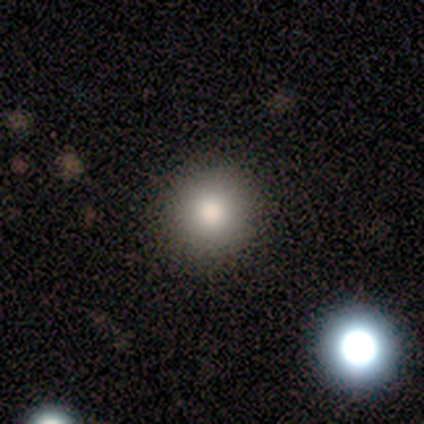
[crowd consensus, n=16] Volunteers were most divided on "smooth or featured": smooth: 69%, featured or disk: 25%, star or artifact: 6%. More confident: how rounded — round (91%); merging — none (87%).